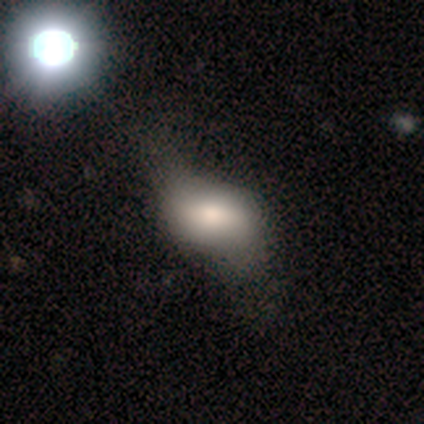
Smooth or featured? smooth (80%)
How rounded? in between (75%)
Merging? none (40%, tied with minor disturbance)